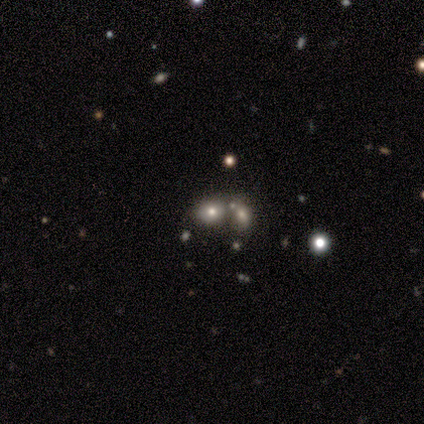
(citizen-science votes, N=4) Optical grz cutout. It shows a smooth galaxy with no disk features (50%) that is round (50%, tied with in between). Merging: none (33%, tied with minor disturbance and merger).